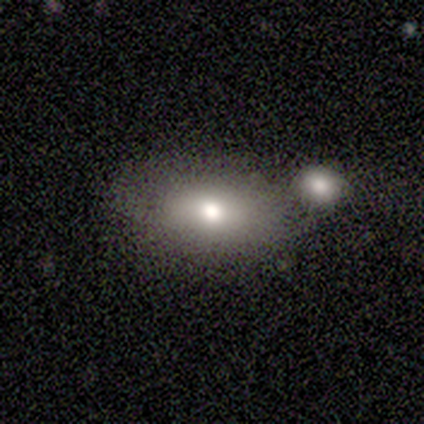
Smooth or featured?
  - smooth: 80% *
  - featured or disk: 20%
  - star or artifact: 0%
How rounded?
  - in between: 75% *
  - round: 25%
  - cigar-shaped: 0%
Merging?
  - merger: 60% *
  - none: 40%
  - minor disturbance: 0%
  - major disturbance: 0%